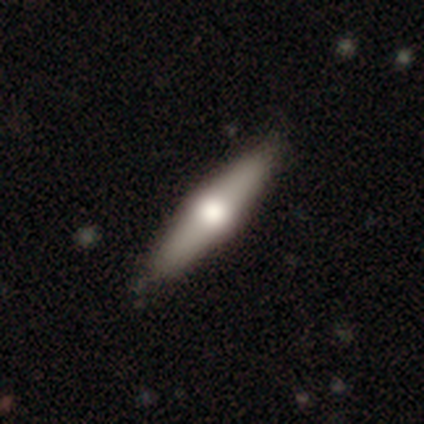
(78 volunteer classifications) Smooth or featured: featured or disk — 49% (smooth — 47%)
Edge-on disk: yes — 89% (no — 11%)
Edge-on bulge: rounded — 100%
Merging: none — 52% (minor disturbance — 5%)